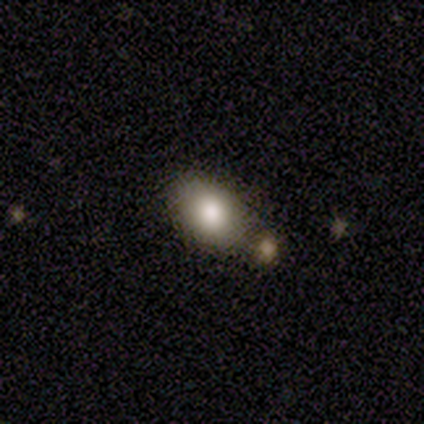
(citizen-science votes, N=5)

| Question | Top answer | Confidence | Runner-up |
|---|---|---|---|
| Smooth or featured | smooth | 100% | — |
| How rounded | in between | 100% | — |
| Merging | none | 80% | merger (20%) |